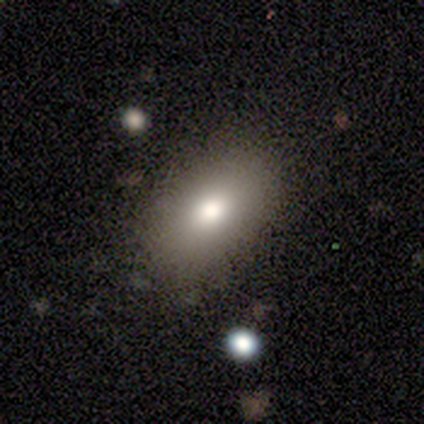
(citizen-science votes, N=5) A smooth galaxy with no disk features (100%) that is in between round and cigar-shaped (100%). Merging: none (60%).